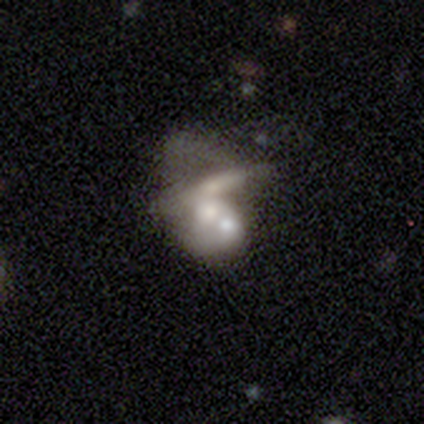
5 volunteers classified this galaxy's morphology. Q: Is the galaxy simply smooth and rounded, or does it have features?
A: featured or disk — 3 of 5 (60%).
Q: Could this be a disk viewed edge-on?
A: no — 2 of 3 (67%).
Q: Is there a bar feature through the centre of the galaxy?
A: no — 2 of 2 (100%).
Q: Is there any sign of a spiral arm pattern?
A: yes — 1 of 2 (50%, tied with no).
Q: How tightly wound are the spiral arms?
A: loose — 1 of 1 (100%).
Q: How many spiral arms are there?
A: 1 — 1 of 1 (100%).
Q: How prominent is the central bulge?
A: dominant — 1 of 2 (50%, tied with moderate).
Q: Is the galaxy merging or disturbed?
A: merger — 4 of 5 (80%).